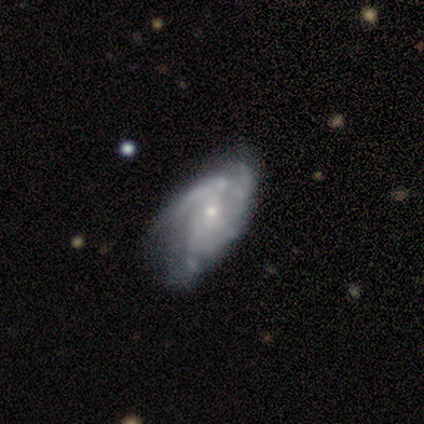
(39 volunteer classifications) Smooth or featured: featured or disk — 79% (smooth — 18%)
Edge-on disk: no — 100%
Bar: no — 55% (weak — 35%)
Spiral arms: yes — 90% (no — 10%)
Spiral winding: medium — 57% (tight — 32%)
Spiral arm count: can't tell — 54% (2 — 32%)
Bulge size: small — 71% (moderate — 26%)
Merging: none — 29% (major disturbance — 21%)